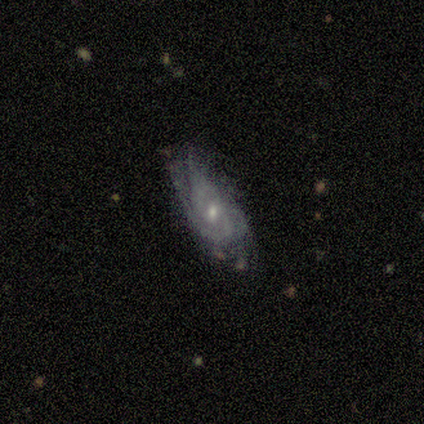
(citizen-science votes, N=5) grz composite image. It shows a featured or disk galaxy (80%) with no bar (75%), 2 (75%) tight (50%, tied with medium) spiral arms (100%) and a small central bulge (100%). Merging: none (60%).